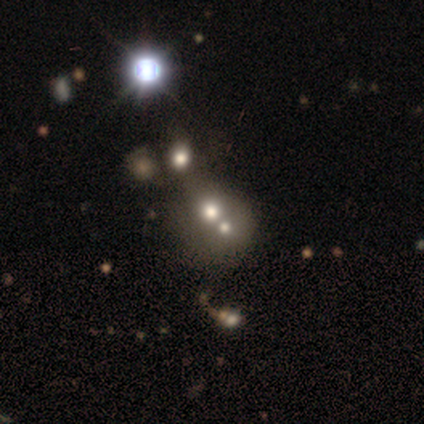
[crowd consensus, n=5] smooth-or-featured: star or artifact: 60% | smooth: 40% | featured or disk: 0%